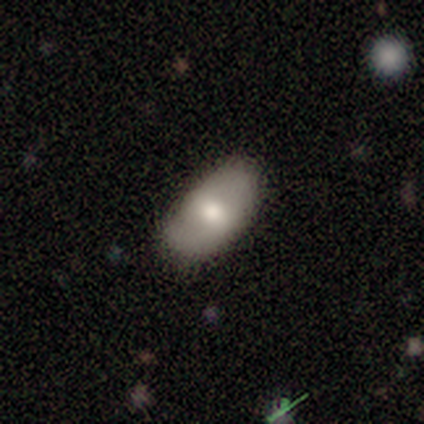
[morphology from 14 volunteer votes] Smooth or featured: smooth — 71% (featured or disk — 29%)
How rounded: in between — 90% (cigar-shaped — 10%)
Merging: none — 57% (minor disturbance — 36%)